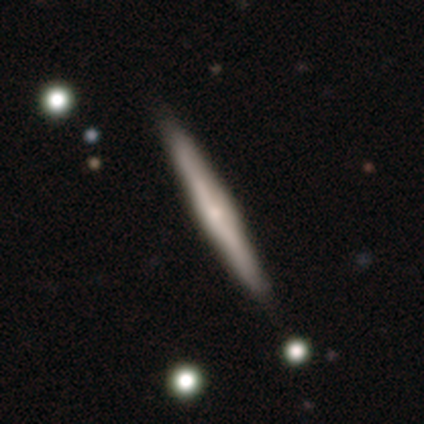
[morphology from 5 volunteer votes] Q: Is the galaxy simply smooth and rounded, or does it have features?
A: featured or disk — 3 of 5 (60%).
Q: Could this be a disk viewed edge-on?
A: yes — 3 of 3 (100%).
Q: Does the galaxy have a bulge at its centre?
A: boxy — 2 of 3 (67%).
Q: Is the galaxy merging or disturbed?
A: none — 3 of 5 (60%).